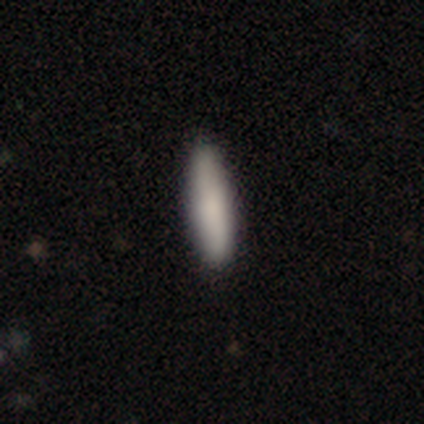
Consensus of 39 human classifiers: Morphology: type=smooth (82%); roundness=cigar-shaped (84%); merging=none (92%).